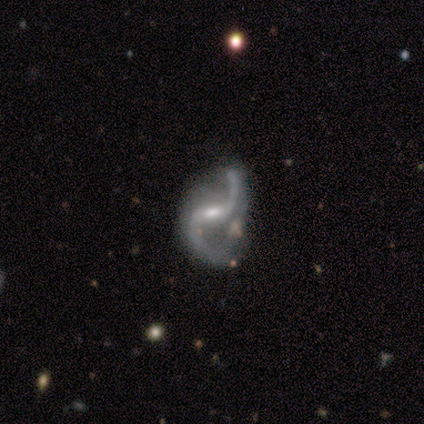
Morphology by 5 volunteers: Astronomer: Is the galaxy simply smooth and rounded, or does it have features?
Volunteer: featured or disk — 100%.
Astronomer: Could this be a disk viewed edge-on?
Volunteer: no — 100%.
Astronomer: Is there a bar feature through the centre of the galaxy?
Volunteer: no — 60%.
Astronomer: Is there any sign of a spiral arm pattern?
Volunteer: yes — 100%.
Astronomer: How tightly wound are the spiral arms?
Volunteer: loose — 100%.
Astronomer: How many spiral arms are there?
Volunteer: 2 — 100%.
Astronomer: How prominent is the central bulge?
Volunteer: small — 60% (runner-up: moderate, 40%).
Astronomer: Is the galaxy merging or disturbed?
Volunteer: none — 40%, tied with minor disturbance at 40%.